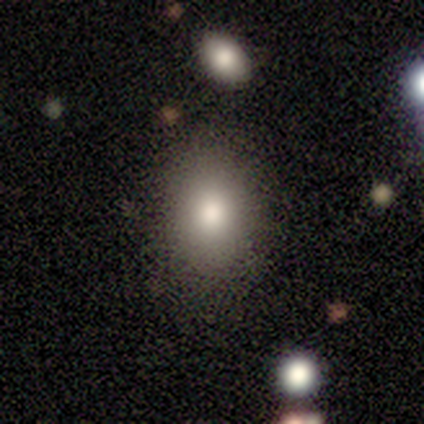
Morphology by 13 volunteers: Smooth or featured: smooth — 77% (star or artifact — 15%)
How rounded: in between — 80% (round — 20%)
Merging: none — 100%